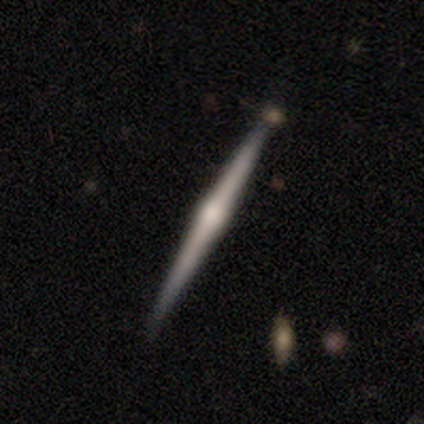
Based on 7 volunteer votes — smooth-or-featured: featured or disk: 100% | smooth: 0% | star or artifact: 0%
  disk-edge-on: yes: 100% | no: 0%
    edge-on-bulge: rounded: 71% | none: 29% | boxy: 0%
  merging: none: 100% | minor disturbance: 0% | major disturbance: 0% | merger: 0%